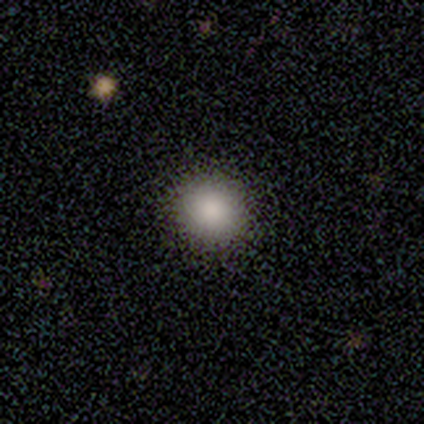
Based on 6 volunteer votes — Smooth or featured? 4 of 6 (67%) said smooth. How rounded? 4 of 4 (100%) said round. Merging? 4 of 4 (100%) said none.